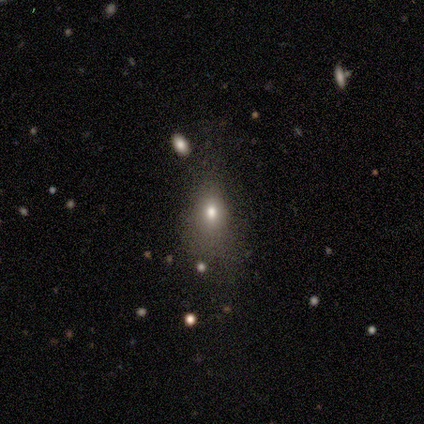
Q: Smooth or featured?
A: smooth (100%)
Q: How rounded?
A: in between (75%); runner-up: round (25%)
Q: Merging?
A: none (50%); tied with: major disturbance (50%)